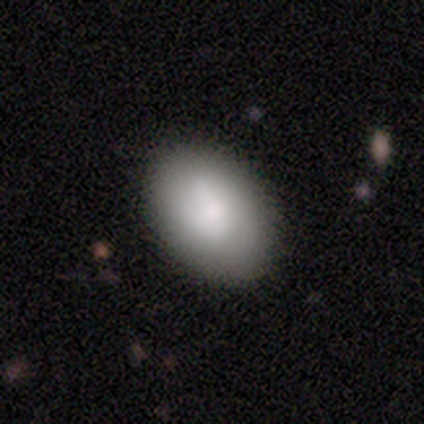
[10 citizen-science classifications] Smooth or featured?
  - smooth: 80% *
  - featured or disk: 20%
  - star or artifact: 0%
How rounded?
  - in between: 100% *
  - round: 0%
  - cigar-shaped: 0%
Merging?
  - none: 90% *
  - minor disturbance: 10%
  - major disturbance: 0%
  - merger: 0%